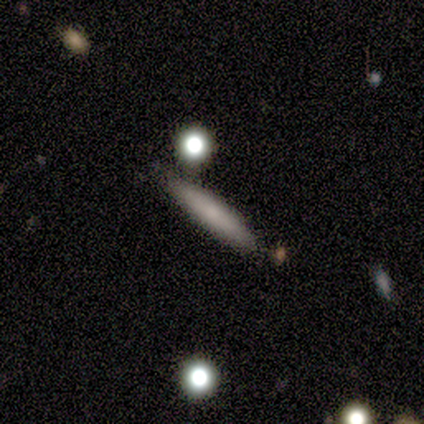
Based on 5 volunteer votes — This is clearly a smooth galaxy (100%). How rounded: clearly cigar-shaped (100%). Merging: clearly none (80%).